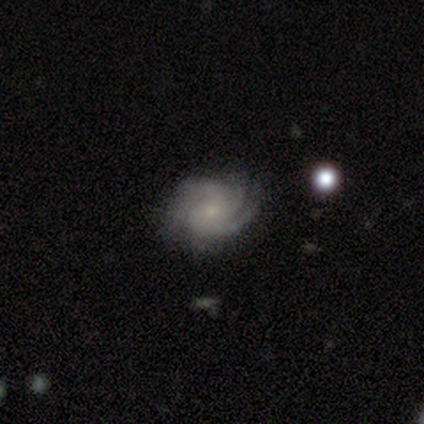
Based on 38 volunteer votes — smooth_or_featured: featured or disk (p=0.97) [alt: star or artifact p=0.03]
disk_edge_on: no (p=1.00)
bar: no (p=0.84) [alt: weak p=0.14]
has_spiral_arms: yes (p=1.00)
spiral_winding: tight (p=0.62) [alt: medium p=0.32]
spiral_arm_count: 3 (p=0.35) [alt: 2 p=0.32]
bulge_size: small (p=0.84) [alt: moderate p=0.11]
merging: none (p=0.57) [alt: minor disturbance p=0.08]